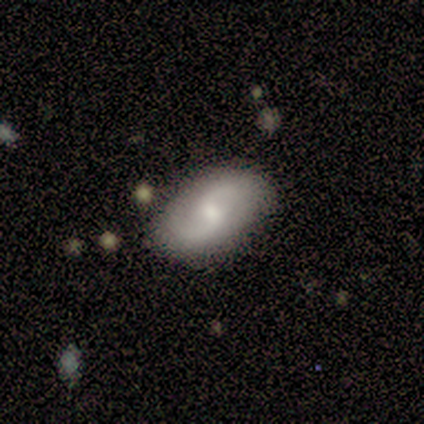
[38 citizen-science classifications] Morphology: type=featured or disk (74%); edge-on=no (96%); bar=weak (52%); spiral arms=yes (93%); winding=loose (68%); arm count=2 (88%); bulge=small (52%); merging=none (79%).